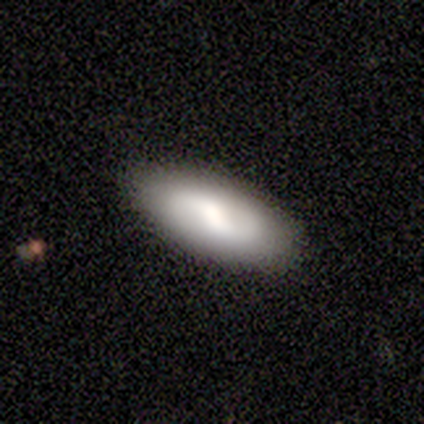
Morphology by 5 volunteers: Smooth or featured? 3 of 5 (60%) said featured or disk. Edge-on disk? 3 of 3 (100%) said no. Bar? 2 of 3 (67%) said no. Spiral arms? 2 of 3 (67%) said yes. Spiral winding? 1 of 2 (50%, tied with loose) said tight. Spiral arm count? 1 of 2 (50%, tied with can't tell) said 2. Bulge size? 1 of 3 (33%, tied with moderate and none) said large. Merging? 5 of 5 (100%) said none.